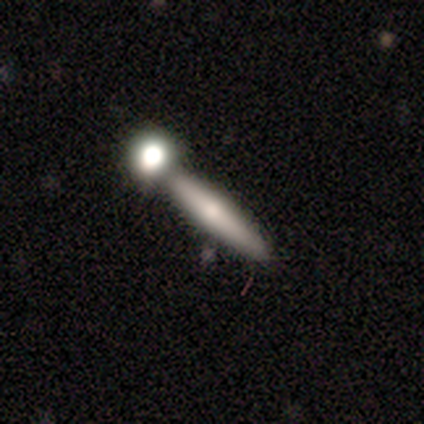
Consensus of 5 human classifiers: Smooth or featured? 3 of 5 (60%) said smooth. How rounded? 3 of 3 (100%) said cigar-shaped. Merging? 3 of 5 (60%) said none.